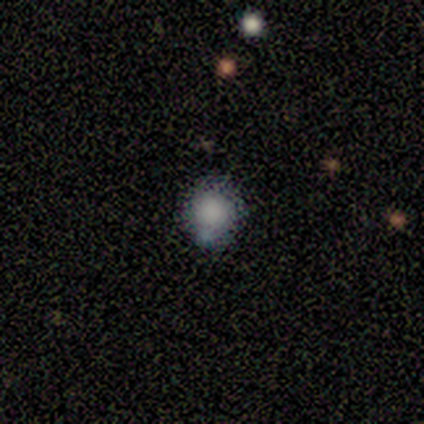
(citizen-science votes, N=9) Morphology: type=smooth (78%); roundness=round (100%); merging=none (57%).